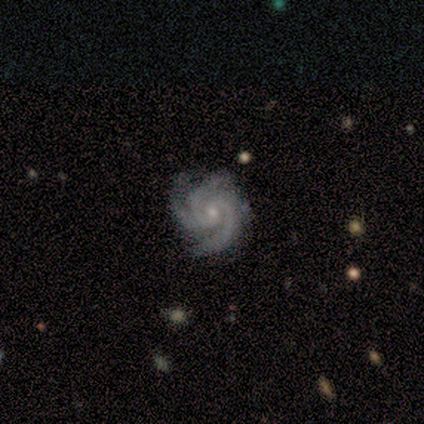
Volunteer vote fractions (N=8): smooth-or-featured: featured or disk: 100% | smooth: 0% | star or artifact: 0%
  disk-edge-on: no: 100% | yes: 0%
    bar: no: 75% | weak: 25% | strong: 0%
    has-spiral-arms: yes: 100% | no: 0%
      spiral-winding: tight: 50% (tied) | medium: 50% (tied) | loose: 0%
      spiral-arm-count: 3: 88% | can't tell: 12% | 1: 0% | 2: 0% | 4: 0% | more than 4: 0%
    bulge-size: small: 100% | dominant: 0% | large: 0% | moderate: 0% | none: 0%
  merging: none: 75% | minor disturbance: 25% | major disturbance: 0% | merger: 0%